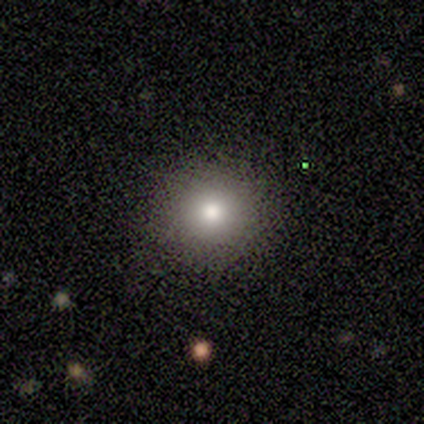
smooth-or-featured: smooth: 100% | featured or disk: 0% | star or artifact: 0%
  how-rounded: round: 100% | in between: 0% | cigar-shaped: 0%
  merging: none: 100% | minor disturbance: 0% | major disturbance: 0% | merger: 0%